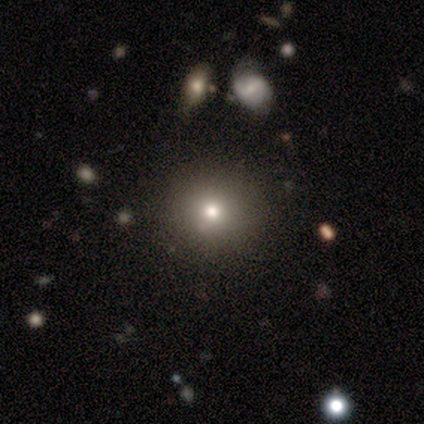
Smooth or featured? 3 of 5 (60%) said smooth. How rounded? 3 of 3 (100%) said round. Merging? 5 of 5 (100%) said none.